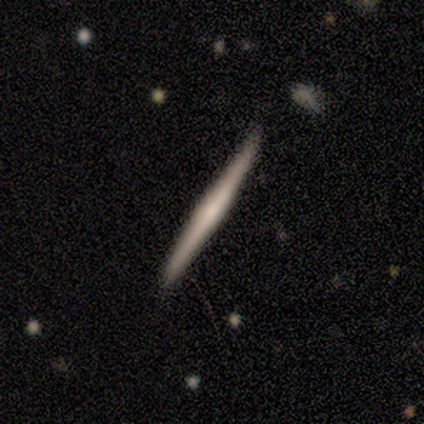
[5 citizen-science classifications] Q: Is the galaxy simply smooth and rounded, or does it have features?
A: featured or disk — 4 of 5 (80%).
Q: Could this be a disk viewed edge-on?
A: yes — 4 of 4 (100%).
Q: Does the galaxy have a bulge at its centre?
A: boxy — 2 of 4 (50%, tied with none).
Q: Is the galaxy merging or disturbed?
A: none — 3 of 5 (60%).